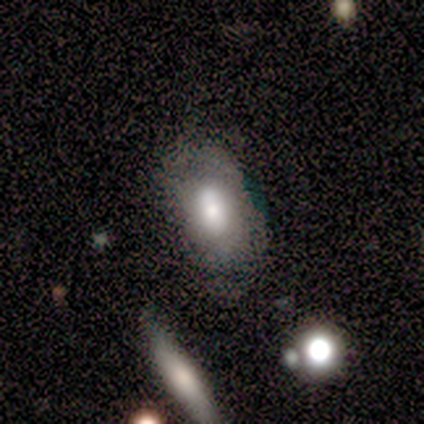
This appears to be a smooth galaxy with no disk features (100%) that is in between round and cigar-shaped (100%). Merging: none (75%).